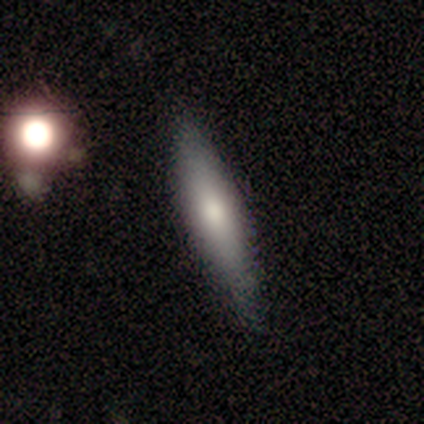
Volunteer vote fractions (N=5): smooth_or_featured: smooth (p=0.60) [alt: star or artifact p=0.40]
how_rounded: cigar-shaped (p=1.00)
merging: none (p=0.67) [alt: minor disturbance p=0.33]